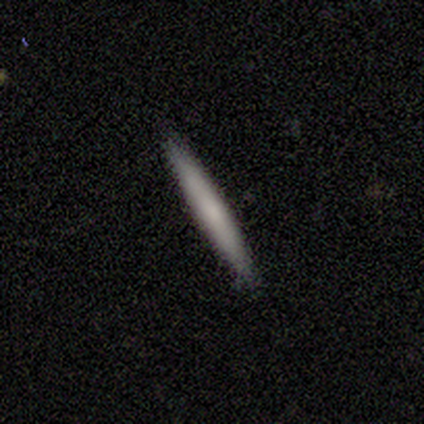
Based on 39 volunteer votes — Smooth or featured?
  - smooth: 64% *
  - featured or disk: 33%
  - star or artifact: 3%
How rounded?
  - cigar-shaped: 100% *
  - round: 0%
  - in between: 0%
Merging?
  - none: 89% *
  - minor disturbance: 8%
  - major disturbance: 3%
  - merger: 0%